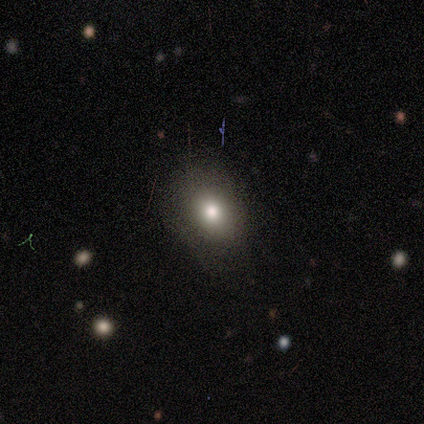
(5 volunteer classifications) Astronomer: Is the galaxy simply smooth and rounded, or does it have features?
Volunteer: smooth — 80%.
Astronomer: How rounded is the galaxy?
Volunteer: in between — 75%.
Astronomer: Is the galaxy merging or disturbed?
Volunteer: minor disturbance — 60% (runner-up: none, 40%).